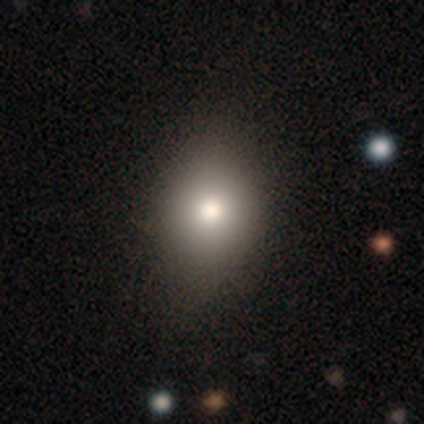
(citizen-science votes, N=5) This appears to be a smooth galaxy with no disk features (80%) that is round (50%, tied with in between). Merging: none (60%).